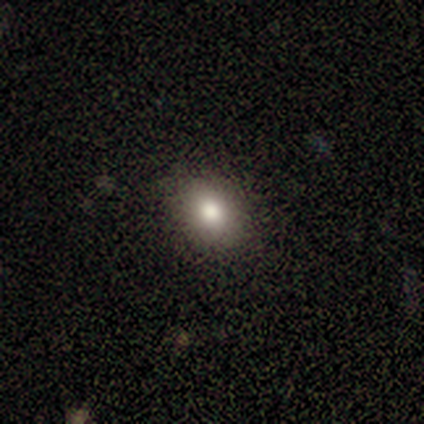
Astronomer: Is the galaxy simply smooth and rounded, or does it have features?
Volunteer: smooth — 100%.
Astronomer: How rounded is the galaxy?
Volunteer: in between — 75%.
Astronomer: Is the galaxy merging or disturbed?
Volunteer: none — 100%.